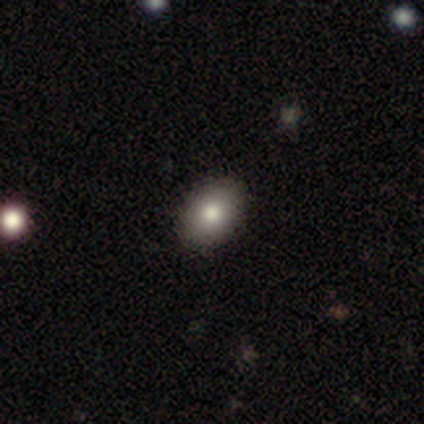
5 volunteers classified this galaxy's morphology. type=smooth (60%); roundness=in between (100%); merging=none (100%).